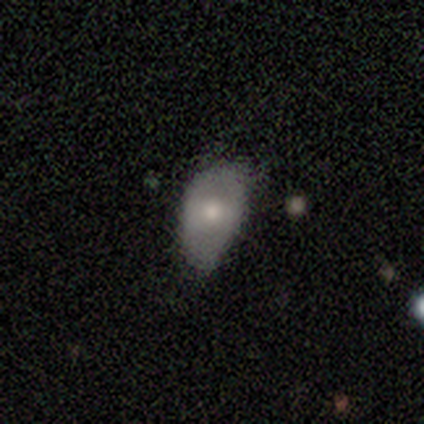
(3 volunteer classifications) smooth 100%, featured or disk 0%, star or artifact 0%. Down the decision tree: how rounded — in between (100%); merging — minor disturbance (100%).